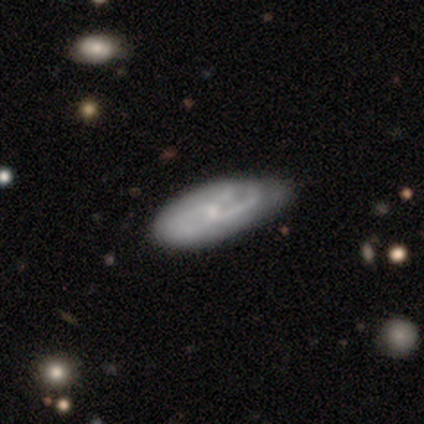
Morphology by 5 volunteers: Smooth or featured? featured or disk (60%)
Edge-on disk? no (67%)
Bar? weak (100%)
Spiral arms? yes (100%)
Spiral winding? tight (100%)
Spiral arm count? 2 (50%, tied with can't tell)
Bulge size? small (100%)
Merging? minor disturbance (60%)